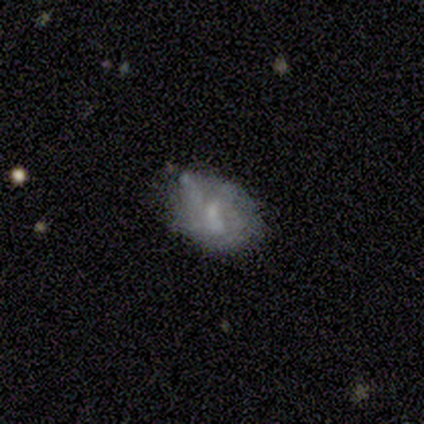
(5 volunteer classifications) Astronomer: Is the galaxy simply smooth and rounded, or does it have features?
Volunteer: smooth — 60% (runner-up: featured or disk, 40%).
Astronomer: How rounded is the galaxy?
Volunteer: in between — 100%.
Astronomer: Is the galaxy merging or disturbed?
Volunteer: none — 60%.